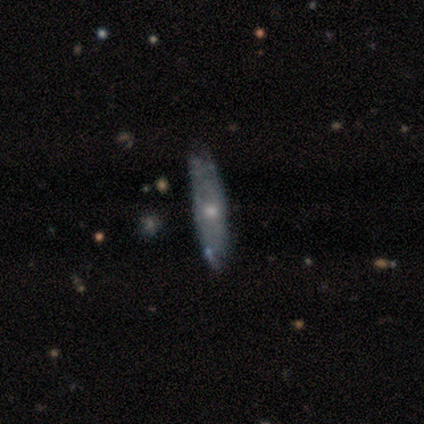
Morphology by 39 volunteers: Volunteers were most divided on "bulge size": moderate: 53%, small: 47%, dominant: 0%, large: 0%, none: 0%. More confident: bar — no (80%); spiral arms — no (67%); smooth or featured — featured or disk (67%); merging — none (65%); edge-on disk — no (58%).